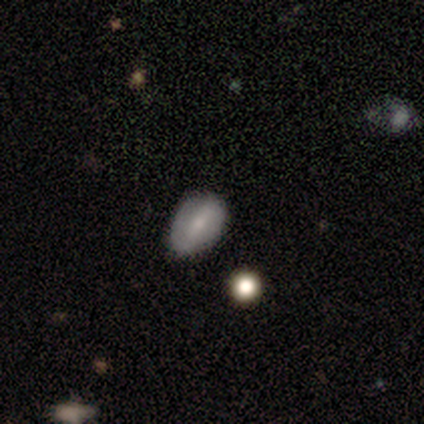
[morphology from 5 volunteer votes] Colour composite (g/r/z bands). It shows a smooth galaxy with no disk features (80%) that is in between round and cigar-shaped (75%). Merging: none (100%).